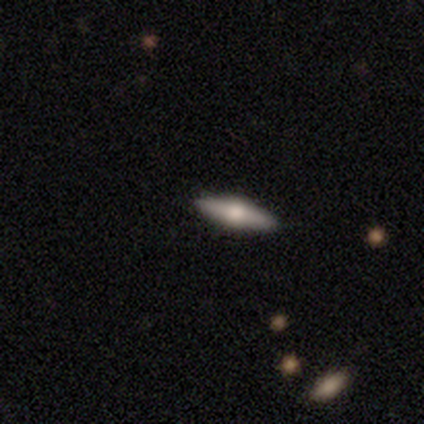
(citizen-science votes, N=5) Q: Smooth or featured?
A: featured or disk (100%)
Q: Edge-on disk?
A: yes (80%); runner-up: no (20%)
Q: Edge-on bulge?
A: rounded (100%)
Q: Merging?
A: none (100%)